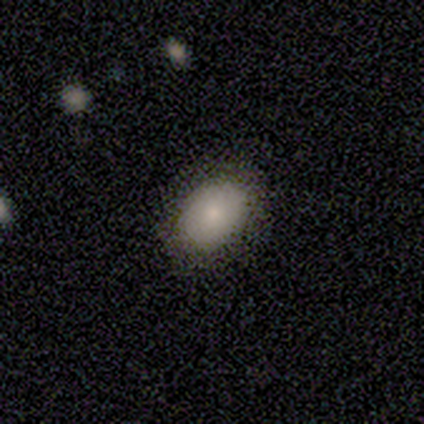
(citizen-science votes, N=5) smooth_or_featured: smooth (p=1.00)
how_rounded: in between (p=1.00)
merging: none (p=0.80) [alt: minor disturbance p=0.20]